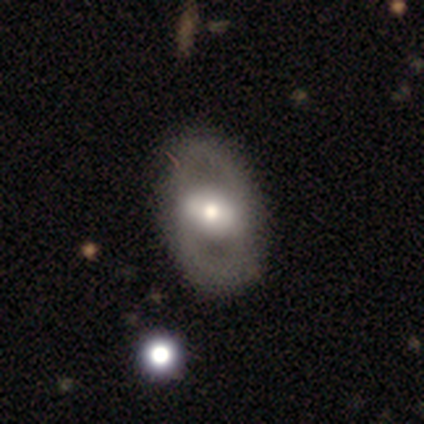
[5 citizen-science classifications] Smooth or featured?
  - smooth: 80% *
  - featured or disk: 20%
  - star or artifact: 0%
How rounded?
  - in between: 75% *
  - round: 25%
  - cigar-shaped: 0%
Merging?
  - none: 100% *
  - minor disturbance: 0%
  - major disturbance: 0%
  - merger: 0%